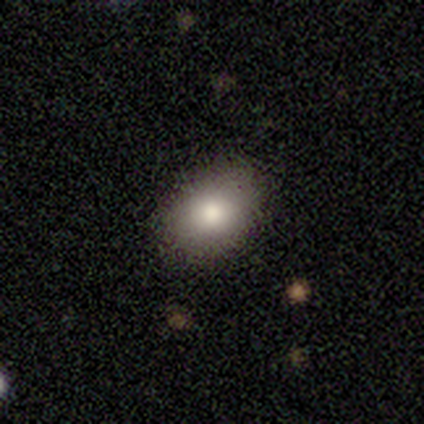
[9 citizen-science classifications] Smooth or featured: smooth — 89% (star or artifact — 11%)
How rounded: in between — 88% (round — 12%)
Merging: none — 88% (minor disturbance — 12%)